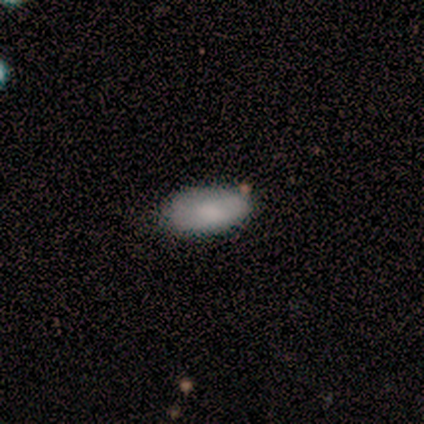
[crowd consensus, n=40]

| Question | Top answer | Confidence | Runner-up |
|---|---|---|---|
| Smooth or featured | smooth | 80% | featured or disk (12%) |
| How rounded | in between | 97% | cigar-shaped (3%) |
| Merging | none | 81% | minor disturbance (14%) |